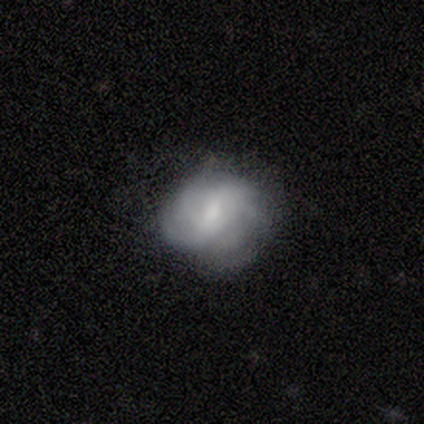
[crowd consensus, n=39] Q: Smooth or featured?
A: featured or disk (51%); runner-up: smooth (44%)
Q: Edge-on disk?
A: no (100%)
Q: Bar?
A: weak (50%); runner-up: no (40%)
Q: Spiral arms?
A: yes (80%); runner-up: no (20%)
Q: Spiral winding?
A: medium (50%); runner-up: tight (31%)
Q: Spiral arm count?
A: can't tell (62%); runner-up: 1 (12%)
Q: Bulge size?
A: moderate (50%); runner-up: small (35%)
Q: Merging?
A: none (70%); runner-up: minor disturbance (24%)